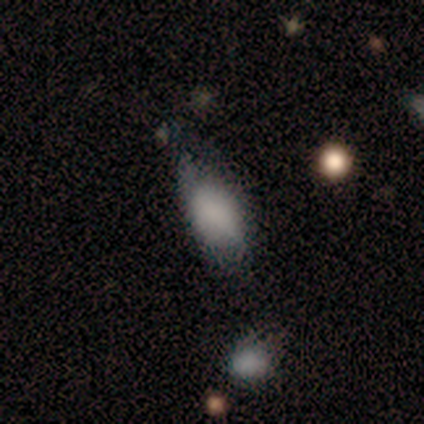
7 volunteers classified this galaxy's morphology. Smooth or featured?
  - smooth: 86% *
  - star or artifact: 14%
  - featured or disk: 0%
How rounded?
  - in between: 83% *
  - cigar-shaped: 17%
  - round: 0%
Merging?
  - minor disturbance: 67% *
  - none: 17%
  - major disturbance: 17%
  - merger: 0%